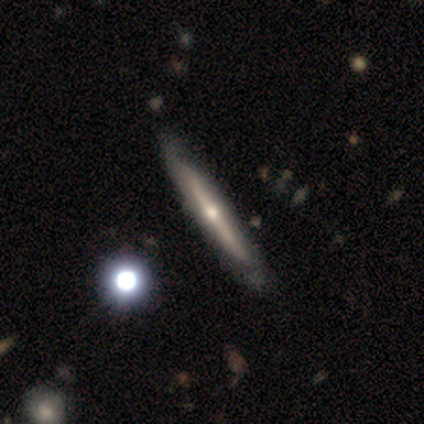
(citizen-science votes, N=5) This is clearly a featured or disk galaxy (100%). It is clearly viewed edge-on (100%). Edge-on bulge: clearly rounded (80%). Merging: clearly none (80%).